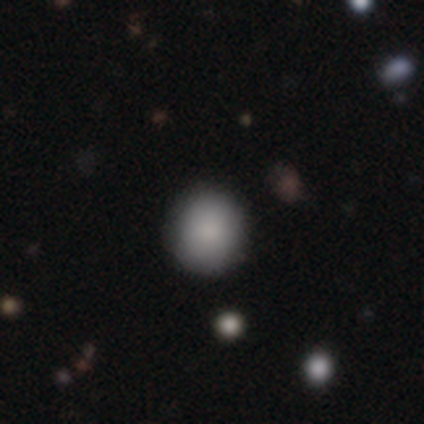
Smooth or featured? 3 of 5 (60%) said smooth. How rounded? 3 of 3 (100%) said round. Merging? 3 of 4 (75%) said none.